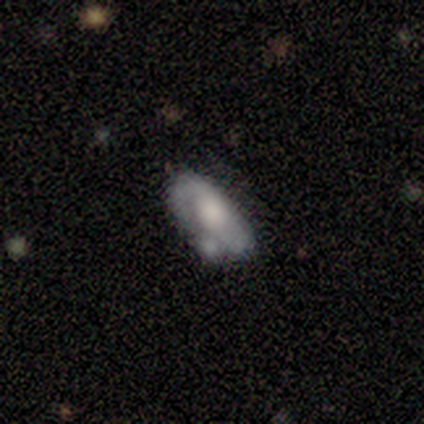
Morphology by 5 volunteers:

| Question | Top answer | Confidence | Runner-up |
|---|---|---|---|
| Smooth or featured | featured or disk | 80% | smooth (20%) |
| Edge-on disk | no | 100% | — |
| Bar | no | 75% | strong (25%) |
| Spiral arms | yes | 50% | tied: no (50%) |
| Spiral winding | tight | 50% | tied: medium (50%) |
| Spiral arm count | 2 | 100% | — |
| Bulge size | moderate | 50% | large (25%) |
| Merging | none | 80% | merger (20%) |